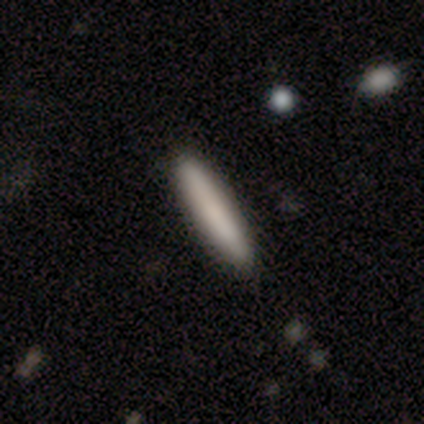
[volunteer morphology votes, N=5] smooth_or_featured: smooth (p=0.80) [alt: featured or disk p=0.20]
how_rounded: cigar-shaped (p=1.00)
merging: none (p=0.80) [alt: minor disturbance p=0.20]